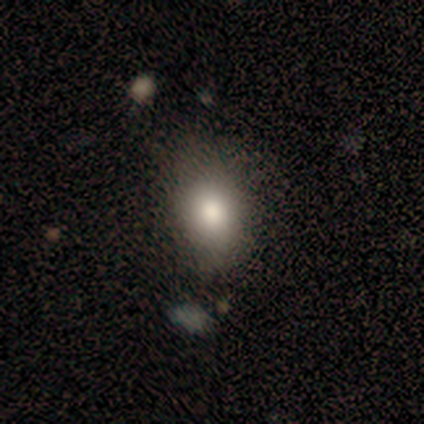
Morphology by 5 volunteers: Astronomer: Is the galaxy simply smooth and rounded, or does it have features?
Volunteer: smooth — 80%.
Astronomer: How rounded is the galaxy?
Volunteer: in between — 75%.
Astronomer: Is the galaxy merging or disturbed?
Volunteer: none — 75%.